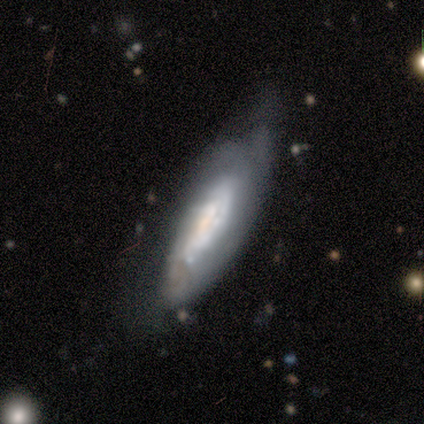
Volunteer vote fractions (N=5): Morphology: type=featured or disk (60%); edge-on=no (67%); bar=no (100%); spiral arms=yes (100%); winding=tight (50%, tied with medium); arm count=3 (50%, tied with can't tell); bulge=large (50%, tied with small); merging=none (40%, tied with minor disturbance).